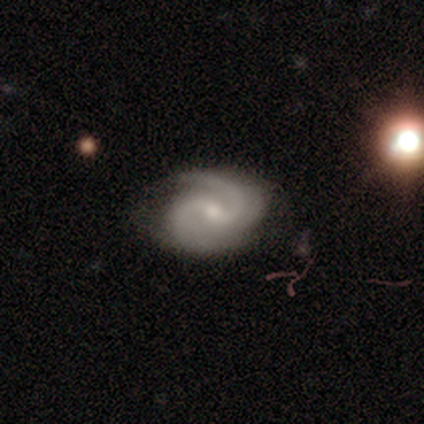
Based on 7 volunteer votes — Morphology: type=featured or disk (86%); edge-on=no (100%); bar=weak (67%); spiral arms=yes (83%); winding=medium (60%); arm count=2 (80%); bulge=small (50%); merging=none (83%).